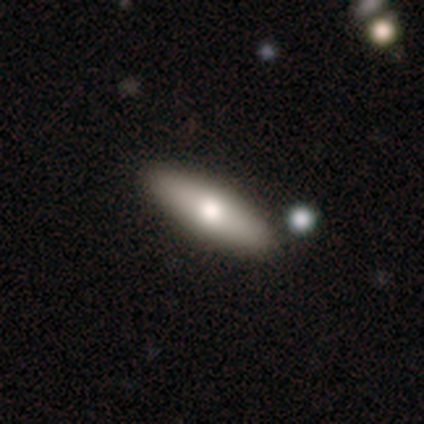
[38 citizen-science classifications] Volunteers were most divided on "how rounded": in between: 52%, cigar-shaped: 48%, round: 0%. More confident: merging — none (83%); smooth or featured — smooth (71%).